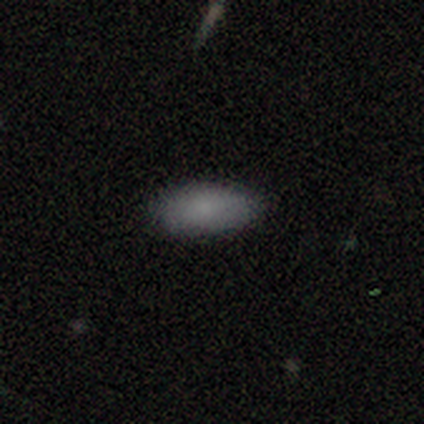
This appears to be a smooth galaxy with no disk features (100%) that is in between round and cigar-shaped (100%). Merging: none (80%).